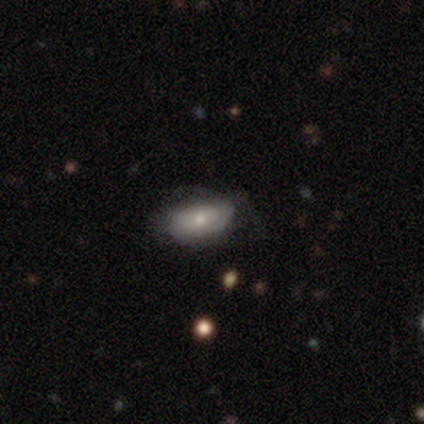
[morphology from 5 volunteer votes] smooth-or-featured: featured or disk: 80% | star or artifact: 20% | smooth: 0%
  disk-edge-on: no: 100% | yes: 0%
    bar: no: 100% | strong: 0% | weak: 0%
    has-spiral-arms: no: 75% | yes: 25%
    bulge-size: small: 75% | moderate: 25% | dominant: 0% | large: 0% | none: 0%
  merging: minor disturbance: 50% (tied) | major disturbance: 50% (tied) | none: 0% | merger: 0%